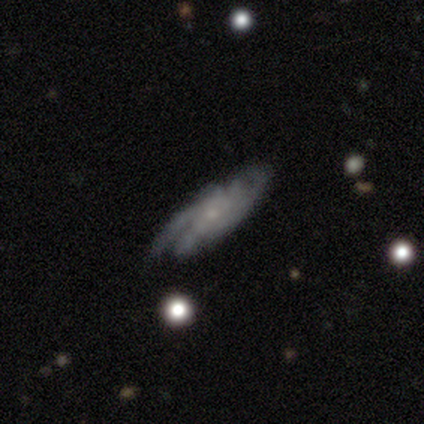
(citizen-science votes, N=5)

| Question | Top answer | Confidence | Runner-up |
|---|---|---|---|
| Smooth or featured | featured or disk | 100% | — |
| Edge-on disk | no | 100% | — |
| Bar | no | 100% | — |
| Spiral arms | yes | 80% | no (20%) |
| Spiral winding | tight | 50% | tied: medium (50%) |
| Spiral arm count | can't tell | 50% | 2 (25%) |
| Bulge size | small | 80% | none (20%) |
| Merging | none | 40% | tied: major disturbance (40%) |